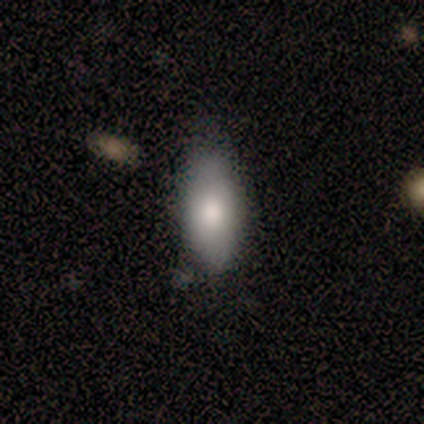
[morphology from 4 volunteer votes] A smooth galaxy with no disk features (50%, tied with featured or disk) that is in between round and cigar-shaped (100%).

Vote fractions:
- Smooth or featured? smooth: 50% (tied) / featured or disk: 50% (tied) / star or artifact: 0%
- How rounded? in between: 100% / round: 0% / cigar-shaped: 0%
- Merging? none: 75% / minor disturbance: 25% / major disturbance: 0% / merger: 0%